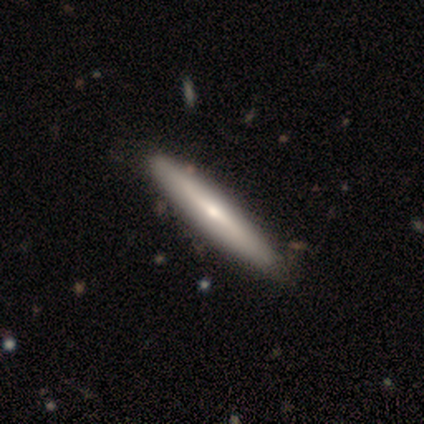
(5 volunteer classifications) Morphology: type=featured or disk (80%); edge-on=yes (100%); edge-on bulge=rounded (100%); merging=none (100%).